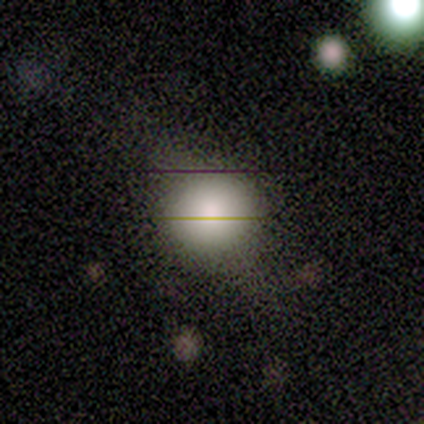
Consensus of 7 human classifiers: smooth-or-featured: smooth: 86% | star or artifact: 14% | featured or disk: 0%
  how-rounded: round: 83% | in between: 17% | cigar-shaped: 0%
  merging: none: 83% | minor disturbance: 17% | major disturbance: 0% | merger: 0%